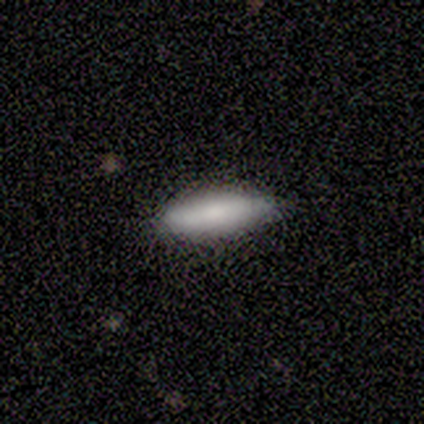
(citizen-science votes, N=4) Q: Smooth or featured?
A: smooth (75%); runner-up: featured or disk (25%)
Q: How rounded?
A: cigar-shaped (100%)
Q: Merging?
A: none (75%); runner-up: minor disturbance (25%)